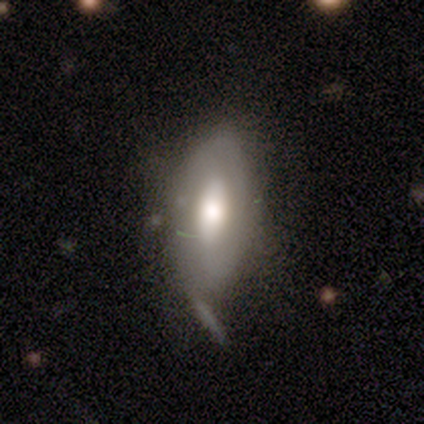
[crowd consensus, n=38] A featured or disk galaxy (53%) with no bar (83%), no spiral arms (78%) and a large central bulge (56%).

Vote fractions:
- Smooth or featured? featured or disk: 53% / smooth: 37% / star or artifact: 11%
- Edge-on disk? no: 90% / yes: 10%
- Bar? no: 83% / weak: 11% / strong: 6%
- Spiral arms? no: 78% / yes: 22%
- Bulge size? large: 56% / dominant: 17% / moderate: 17% / small: 11% / none: 0%
- Merging? none: 47% / minor disturbance: 32% / major disturbance: 12% / merger: 9%